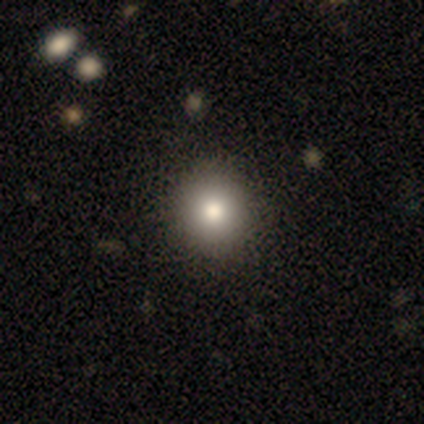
Smooth or featured: smooth — 92% (featured or disk — 8%)
How rounded: round — 89% (in between — 11%)
Merging: none — 68% (minor disturbance — 10%)